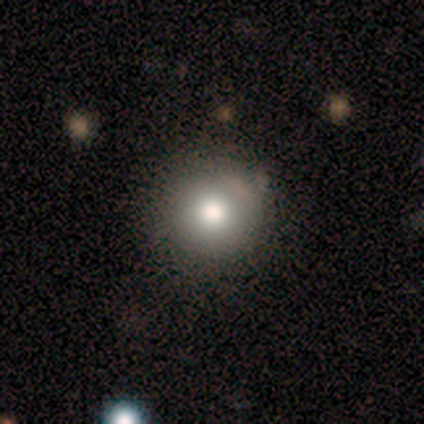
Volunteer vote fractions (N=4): smooth-or-featured: smooth: 75% | star or artifact: 25% | featured or disk: 0%
  how-rounded: round: 100% | in between: 0% | cigar-shaped: 0%
  merging: none: 100% | minor disturbance: 0% | major disturbance: 0% | merger: 0%